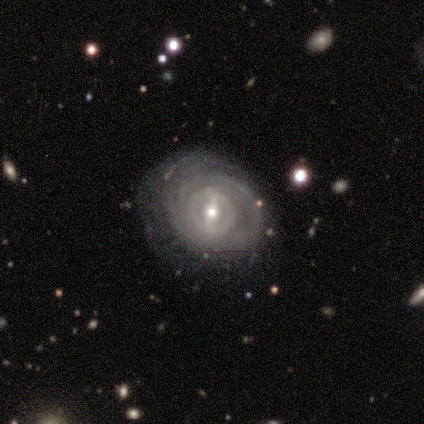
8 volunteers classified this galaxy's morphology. A featured or disk galaxy (100%) with a weak bar (62%), tight (100%) spiral arms (75%) and a moderate central bulge (75%).

Vote fractions:
- Smooth or featured? featured or disk: 100% / smooth: 0% / star or artifact: 0%
- Edge-on disk? no: 100% / yes: 0%
- Bar? weak: 62% / strong: 25% / no: 12%
- Spiral arms? yes: 75% / no: 25%
- Spiral winding? tight: 100% / medium: 0% / loose: 0%
- Spiral arm count? can't tell: 67% / 2: 17% / 3: 17% / 1: 0% / 4: 0% / more than 4: 0%
- Bulge size? moderate: 75% / small: 25% / dominant: 0% / large: 0% / none: 0%
- Merging? none: 62% / minor disturbance: 38% / major disturbance: 0% / merger: 0%